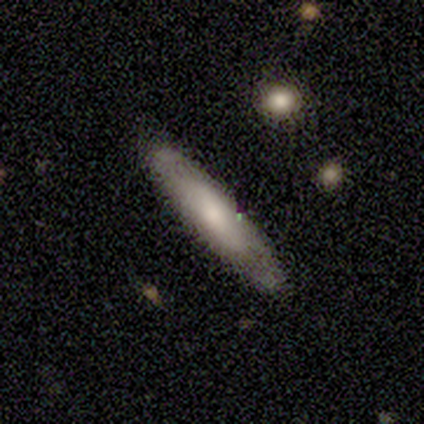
Q: Smooth or featured?
A: smooth (100%)
Q: How rounded?
A: in between (50%); tied with: cigar-shaped (50%)
Q: Merging?
A: none (100%)